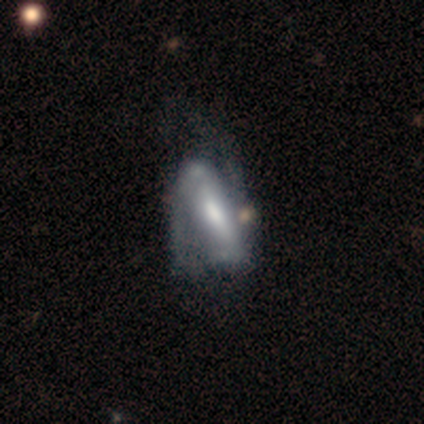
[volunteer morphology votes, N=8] smooth-or-featured: featured or disk: 75% | smooth: 25% | star or artifact: 0%
  disk-edge-on: no: 100% | yes: 0%
    bar: strong: 50% | weak: 33% | no: 17%
    has-spiral-arms: yes: 100% | no: 0%
      spiral-winding: medium: 67% | tight: 17% | loose: 17%
      spiral-arm-count: 2: 83% | 1: 17% | 3: 0% | 4: 0% | more than 4: 0% | can't tell: 0%
    bulge-size: moderate: 67% | small: 17% | none: 17% | dominant: 0% | large: 0%
  merging: none: 38% (tied) | minor disturbance: 38% (tied) | major disturbance: 25% | merger: 0%